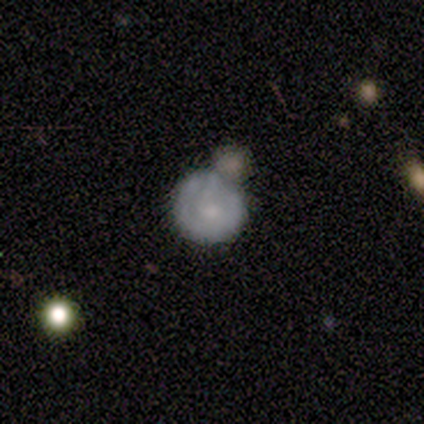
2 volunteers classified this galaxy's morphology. Smooth or featured? 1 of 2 (50%, tied with star or artifact) said smooth. How rounded? 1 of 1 (100%) said round. Merging? 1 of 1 (100%) said merger.